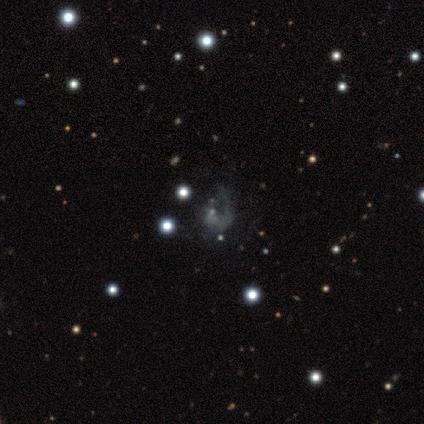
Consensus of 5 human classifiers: Smooth or featured? star or artifact (60%)